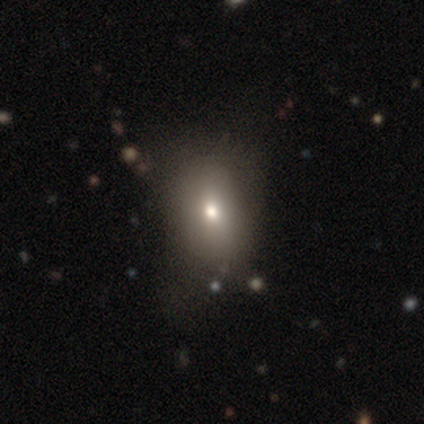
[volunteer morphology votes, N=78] Smooth or featured?
  - smooth: 71% *
  - star or artifact: 15%
  - featured or disk: 14%
How rounded?
  - in between: 73% *
  - round: 25%
  - cigar-shaped: 2%
Merging?
  - none: 39% *
  - minor disturbance: 15%
  - major disturbance: 5%
  - merger: 0%